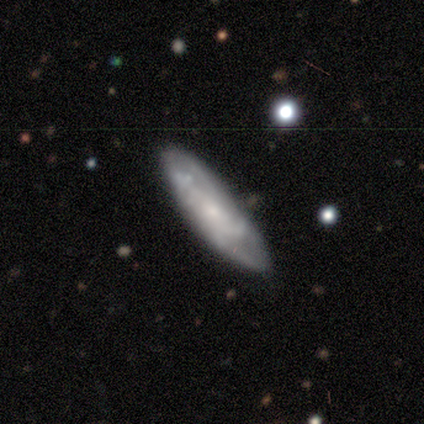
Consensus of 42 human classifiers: Smooth or featured?
  - featured or disk: 67% *
  - smooth: 29%
  - star or artifact: 5%
Edge-on disk?
  - no: 86% *
  - yes: 14%
Bar?
  - no: 96% *
  - weak: 4%
  - strong: 0%
Spiral arms?
  - yes: 71% *
  - no: 29%
Spiral winding?
  - tight: 47% *
  - medium: 35%
  - loose: 18%
Spiral arm count?
  - can't tell: 47% *
  - 4: 35%
  - 1: 6%
  - 2: 6%
  - 3: 6%
  - more than 4: 0%
Bulge size?
  - small: 62% *
  - moderate: 33%
  - none: 4%
  - dominant: 0%
  - large: 0%
Merging?
  - none: 70% *
  - minor disturbance: 28%
  - merger: 2%
  - major disturbance: 0%